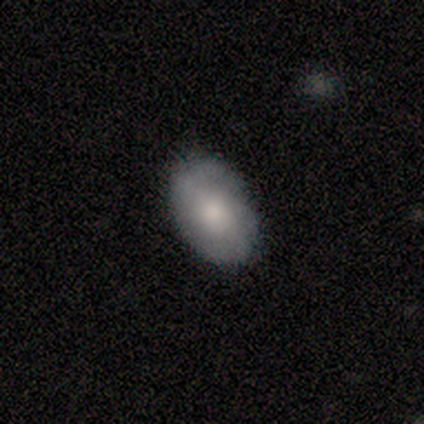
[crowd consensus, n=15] This appears to be a smooth galaxy with no disk features (67%) that is in between round and cigar-shaped (100%). Merging: none (87%).